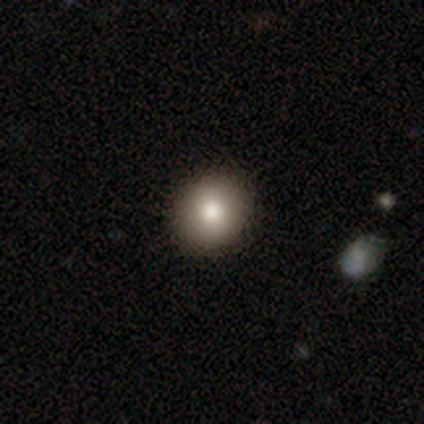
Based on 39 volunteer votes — A smooth galaxy with no disk features (87%) that is round (82%).

Vote fractions:
- Smooth or featured? smooth: 87% / star or artifact: 8% / featured or disk: 5%
- How rounded? round: 82% / in between: 18% / cigar-shaped: 0%
- Merging? none: 83% / minor disturbance: 11% / major disturbance: 6% / merger: 0%